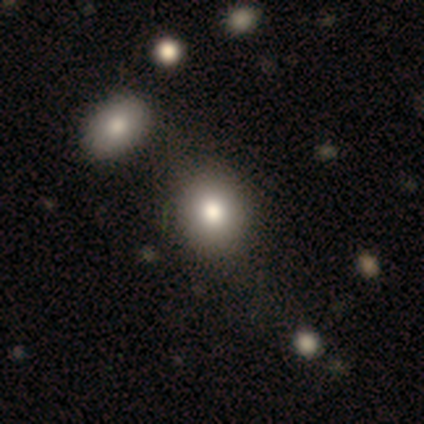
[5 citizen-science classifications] smooth_or_featured: smooth (p=0.60) [alt: star or artifact p=0.40]
how_rounded: in between (p=1.00)
merging: none (p=0.67) [alt: merger p=0.33]